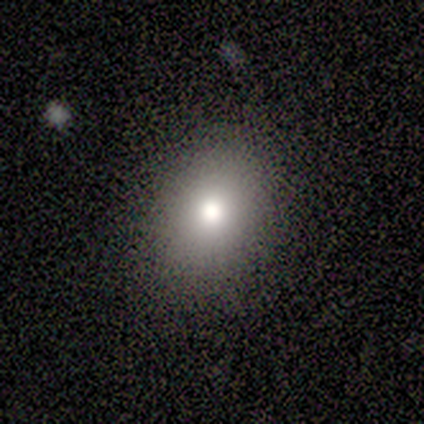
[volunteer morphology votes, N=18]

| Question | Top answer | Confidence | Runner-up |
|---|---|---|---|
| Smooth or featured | smooth | 83% | star or artifact (11%) |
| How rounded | in between | 67% | round (33%) |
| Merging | none | 81% | minor disturbance (19%) |